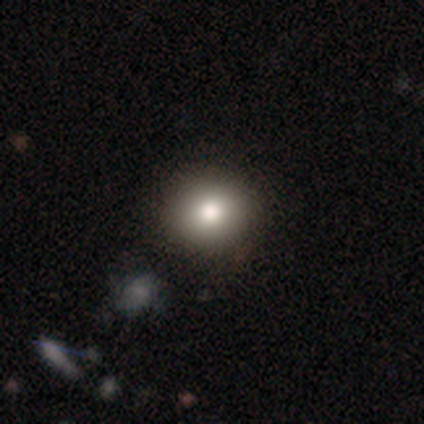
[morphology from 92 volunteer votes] This is likely a smooth galaxy (79%). How rounded: clearly round (95%). Merging: clearly none (93%).